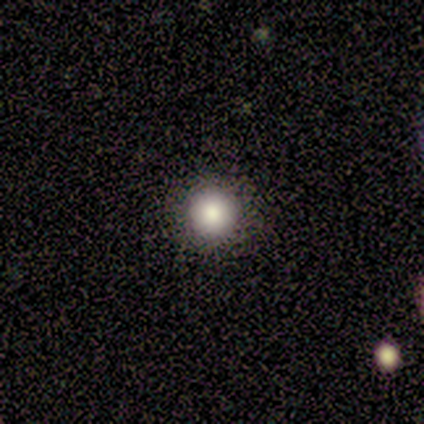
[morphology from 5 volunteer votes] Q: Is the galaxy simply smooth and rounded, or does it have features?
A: smooth — 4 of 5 (80%).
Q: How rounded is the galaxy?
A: round — 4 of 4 (100%).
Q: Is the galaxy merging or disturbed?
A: none — 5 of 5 (100%).